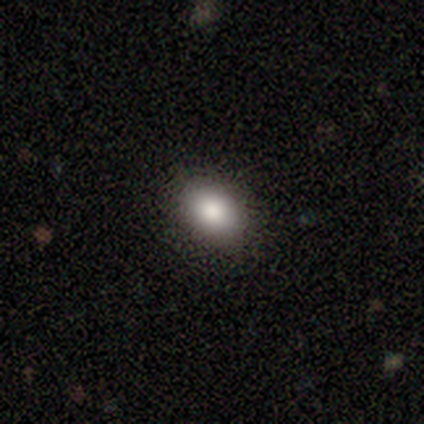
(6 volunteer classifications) A smooth galaxy with no disk features (67%) that is round (50%, tied with in between). Merging: none (100%).